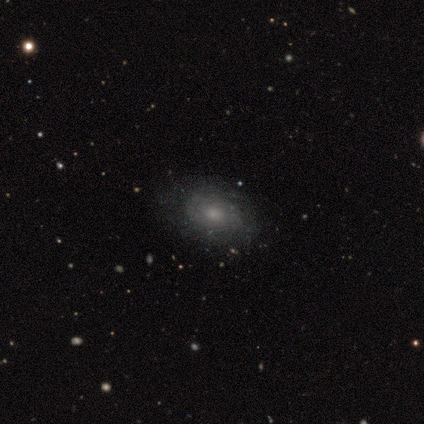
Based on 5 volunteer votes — This appears to be a featured or disk galaxy (80%) with no bar (100%), 3 (50%, tied with more than 4) tight (100%) spiral arms (50%, tied with no) and a moderate central bulge (50%). Merging: none (75%).